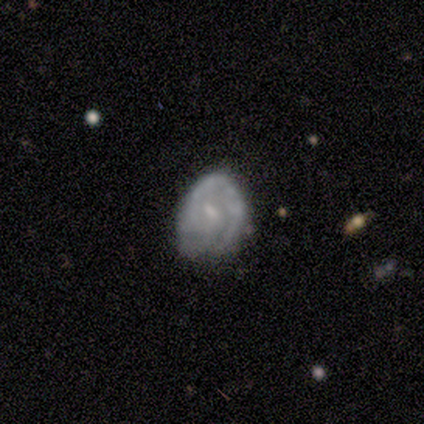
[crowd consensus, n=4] Smooth or featured? 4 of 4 (100%) said featured or disk. Edge-on disk? 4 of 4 (100%) said no. Bar? 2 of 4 (50%, tied with no) said weak. Spiral arms? 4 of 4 (100%) said yes. Spiral winding? 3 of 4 (75%) said tight. Spiral arm count? 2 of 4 (50%) said 1. Bulge size? 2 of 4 (50%) said moderate. Merging? 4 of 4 (100%) said none.